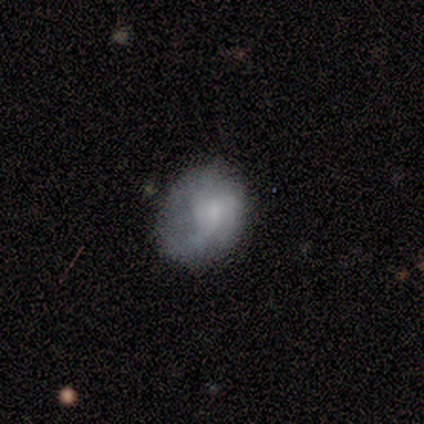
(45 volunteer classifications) smooth_or_featured: featured or disk (p=0.53) [alt: smooth p=0.33]
disk_edge_on: no (p=1.00)
bar: no (p=0.71) [alt: weak p=0.25]
has_spiral_arms: yes (p=0.58) [alt: no p=0.42]
spiral_winding: tight (p=0.36) [tied with: medium p=0.36]
spiral_arm_count: 2 (p=0.36) [alt: 1 p=0.21]
bulge_size: small (p=0.42) [alt: none p=0.25]
merging: none (p=0.36) [alt: minor disturbance p=0.33]